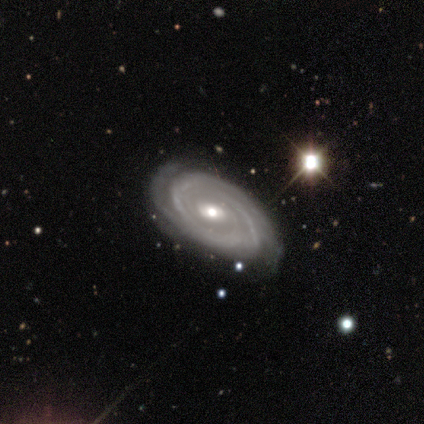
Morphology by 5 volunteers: smooth-or-featured: featured or disk: 60% | smooth: 20% | star or artifact: 20%
  disk-edge-on: no: 100% | yes: 0%
    bar: strong: 33% (tied) | weak: 33% (tied) | no: 33% (tied)
    has-spiral-arms: yes: 100% | no: 0%
      spiral-winding: tight: 67% | medium: 33% | loose: 0%
      spiral-arm-count: 2: 67% | 3: 33% | 1: 0% | 4: 0% | more than 4: 0% | can't tell: 0%
    bulge-size: moderate: 67% | large: 33% | dominant: 0% | small: 0% | none: 0%
  merging: none: 75% | major disturbance: 25% | minor disturbance: 0% | merger: 0%